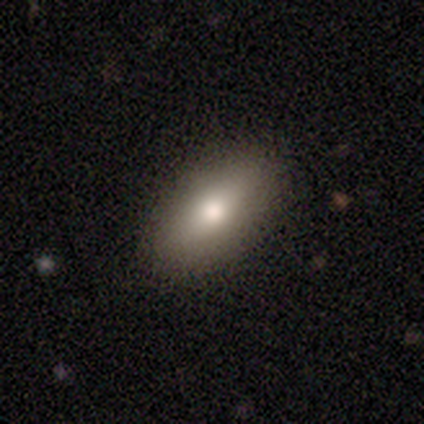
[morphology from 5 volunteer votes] This is clearly a smooth galaxy (80%). How rounded: clearly in between (100%). Merging: clearly none (80%).